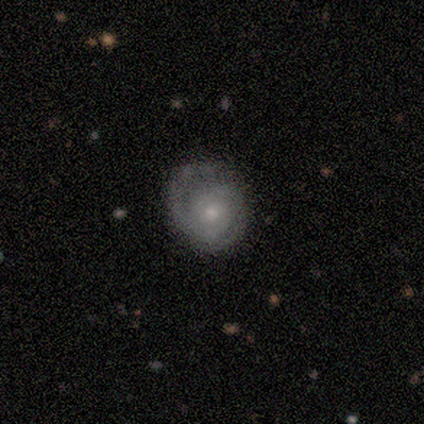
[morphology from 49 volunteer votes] featured or disk 84%, smooth 16%, star or artifact 0%. Down the decision tree: edge-on disk — no (100%); bar — no (93%); spiral arms — yes (98%); spiral arm count — 2 (80%); spiral winding — tight (65%); bulge size — small (56%); merging — none (57%).